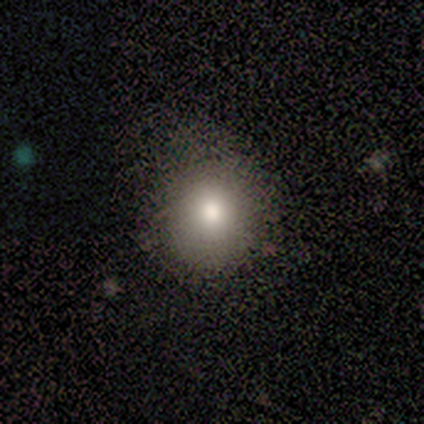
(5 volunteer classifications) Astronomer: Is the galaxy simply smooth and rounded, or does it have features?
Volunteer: smooth — 100%.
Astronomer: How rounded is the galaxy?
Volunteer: round — 60% (runner-up: in between, 40%).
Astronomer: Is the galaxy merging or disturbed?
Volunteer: none — 100%.